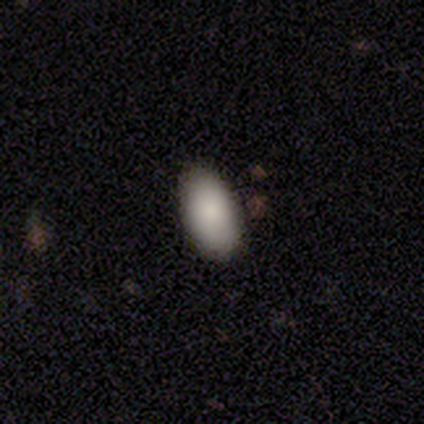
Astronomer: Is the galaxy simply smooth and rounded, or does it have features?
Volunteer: smooth — 60%.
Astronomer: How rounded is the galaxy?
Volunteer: in between — 100%.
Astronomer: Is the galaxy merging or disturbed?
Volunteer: none — 100%.